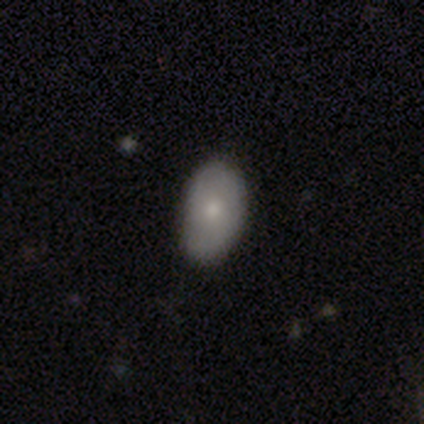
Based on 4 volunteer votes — This is clearly a smooth galaxy (100%). How rounded: clearly in between (100%). Merging: clearly none (100%).